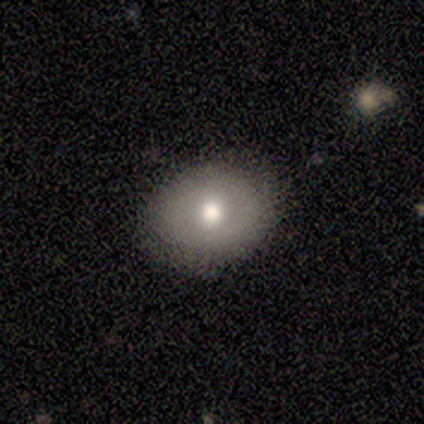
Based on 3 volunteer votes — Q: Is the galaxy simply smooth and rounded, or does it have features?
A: featured or disk — 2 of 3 (67%).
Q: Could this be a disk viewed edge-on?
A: no — 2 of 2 (100%).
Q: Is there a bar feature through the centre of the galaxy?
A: no — 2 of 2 (100%).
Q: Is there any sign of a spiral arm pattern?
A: no — 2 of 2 (100%).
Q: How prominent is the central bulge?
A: moderate — 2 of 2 (100%).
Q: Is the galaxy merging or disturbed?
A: none — 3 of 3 (100%).